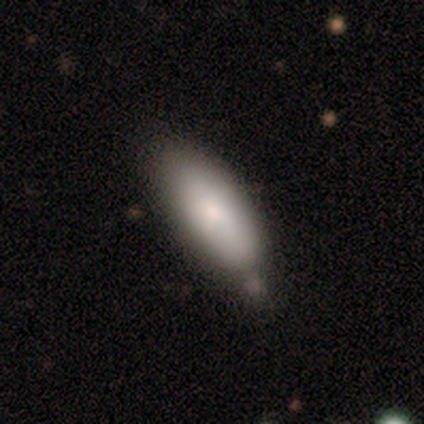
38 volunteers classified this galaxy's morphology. type=smooth (84%); roundness=in between (78%); merging=none (47%).